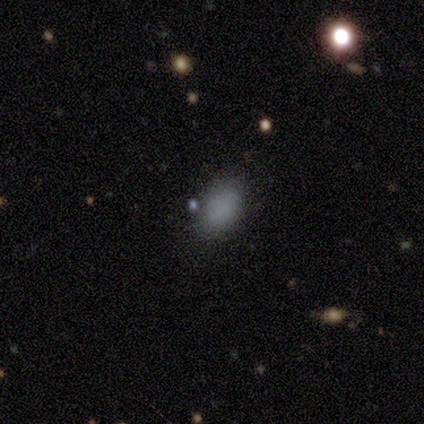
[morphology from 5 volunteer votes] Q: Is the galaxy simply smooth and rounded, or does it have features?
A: smooth — 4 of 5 (80%).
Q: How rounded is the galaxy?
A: in between — 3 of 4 (75%).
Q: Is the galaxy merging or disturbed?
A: none — 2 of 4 (50%).